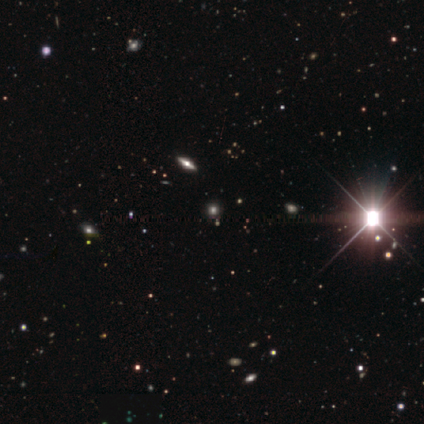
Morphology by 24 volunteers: A smooth galaxy with no disk features (58%) that is round (86%). Merging: none (81%).